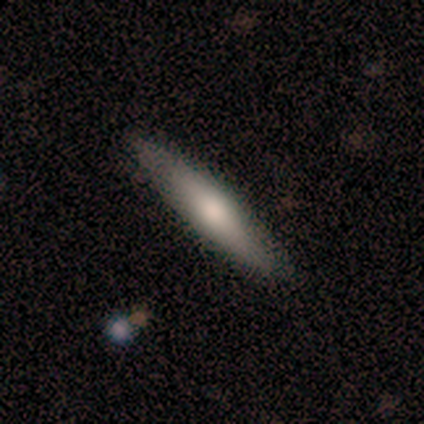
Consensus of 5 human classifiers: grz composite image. It shows a smooth galaxy with no disk features (40%, tied with star or artifact) that is in between round and cigar-shaped (100%). Merging: none (100%).